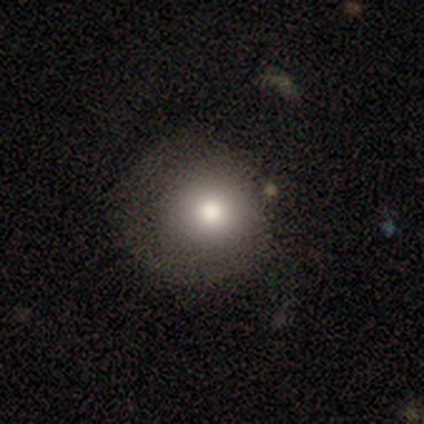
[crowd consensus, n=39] Volunteers were most divided on "merging": none: 53%, minor disturbance: 32%, major disturbance: 9%, merger: 6%. More confident: how rounded — round (86%); smooth or featured — smooth (72%).